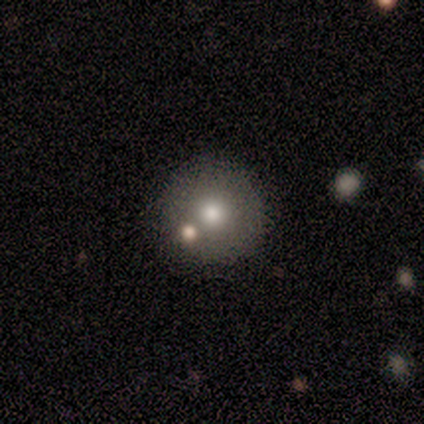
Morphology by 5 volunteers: type=smooth (80%); roundness=round (100%); merging=none (100%).